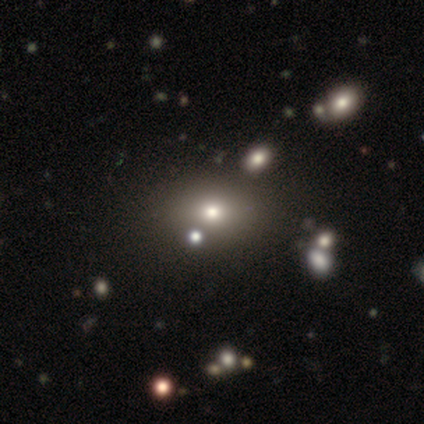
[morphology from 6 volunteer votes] A smooth galaxy with no disk features (33%, tied with featured or disk and star or artifact) that is round (50%, tied with in between).

Vote fractions:
- Smooth or featured? smooth: 33% (tied) / featured or disk: 33% (tied) / star or artifact: 33% (tied)
- How rounded? round: 50% (tied) / in between: 50% (tied) / cigar-shaped: 0%
- Merging? none: 75% / merger: 25% / minor disturbance: 0% / major disturbance: 0%